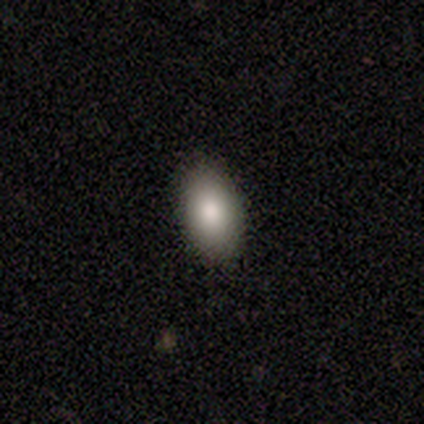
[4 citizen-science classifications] Smooth or featured?
  - smooth: 100% *
  - featured or disk: 0%
  - star or artifact: 0%
How rounded?
  - in between: 100% *
  - round: 0%
  - cigar-shaped: 0%
Merging?
  - none: 75% *
  - minor disturbance: 25%
  - major disturbance: 0%
  - merger: 0%